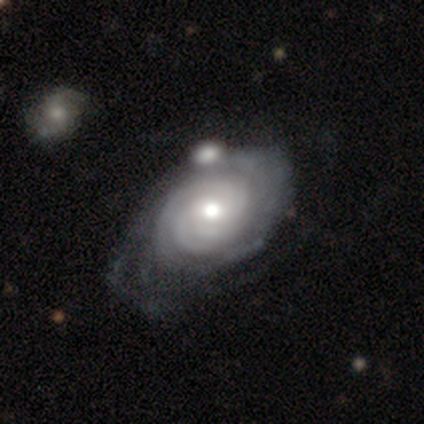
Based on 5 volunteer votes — Q: Smooth or featured?
A: featured or disk (100%)
Q: Edge-on disk?
A: no (100%)
Q: Bar?
A: weak (40%); tied with: no (40%)
Q: Spiral arms?
A: yes (100%)
Q: Spiral winding?
A: tight (100%)
Q: Spiral arm count?
A: 3 (40%); tied with: 4 (40%)
Q: Bulge size?
A: moderate (80%); runner-up: small (20%)
Q: Merging?
A: minor disturbance (60%); runner-up: merger (40%)